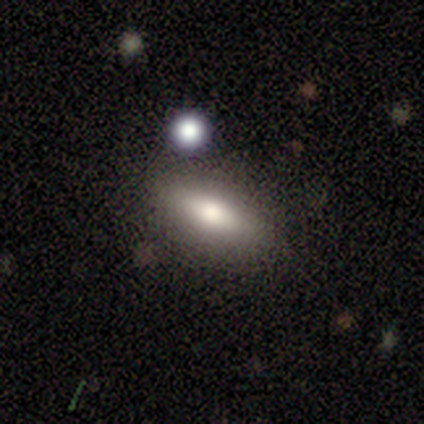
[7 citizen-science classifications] A smooth galaxy with no disk features (71%) that is in between round and cigar-shaped (60%). Merging: none (86%).